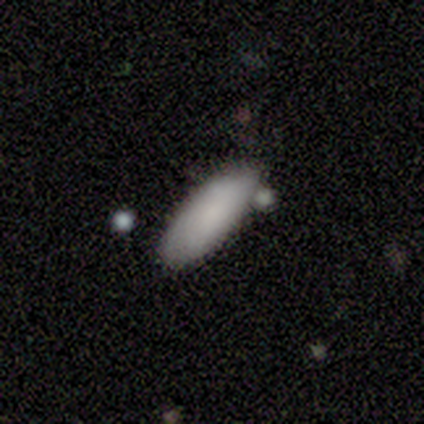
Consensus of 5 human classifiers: Smooth or featured?
  - smooth: 60% *
  - star or artifact: 40%
  - featured or disk: 0%
How rounded?
  - in between: 67% *
  - cigar-shaped: 33%
  - round: 0%
Merging?
  - none: 100% *
  - minor disturbance: 0%
  - major disturbance: 0%
  - merger: 0%